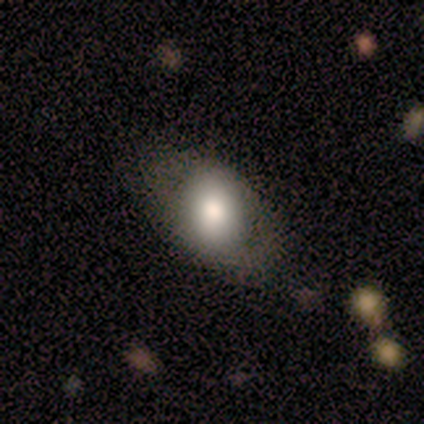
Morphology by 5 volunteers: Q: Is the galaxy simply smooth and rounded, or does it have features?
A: smooth — 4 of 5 (80%).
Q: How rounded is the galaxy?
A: in between — 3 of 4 (75%).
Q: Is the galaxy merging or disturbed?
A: none — 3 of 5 (60%).